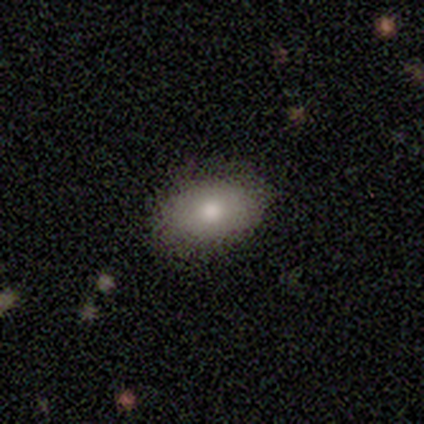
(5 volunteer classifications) A smooth galaxy with no disk features (60%) that is in between round and cigar-shaped (100%). Merging: none (50%).